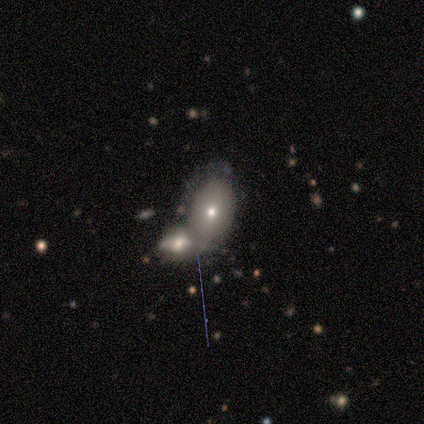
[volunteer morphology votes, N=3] Volunteers were most divided on "smooth or featured": smooth: 67%, featured or disk: 33%, star or artifact: 0%. More confident: how rounded — in between (100%); merging — merger (100%).